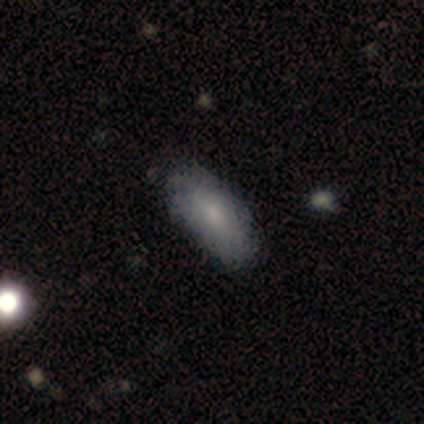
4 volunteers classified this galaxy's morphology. This is likely a smooth galaxy (75%). How rounded: clearly in between (100%). Merging: likely none (75%).